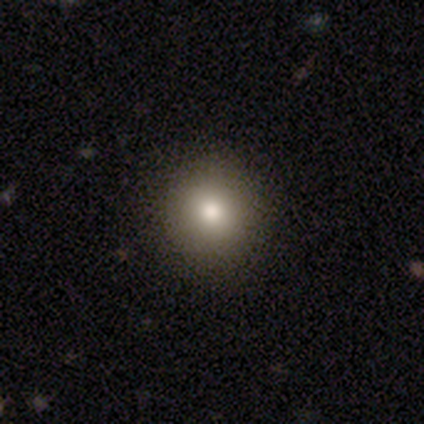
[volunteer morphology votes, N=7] Smooth or featured?
  - smooth: 43% * (tied)
  - star or artifact: 43% * (tied)
  - featured or disk: 14%
How rounded?
  - round: 100% *
  - in between: 0%
  - cigar-shaped: 0%
Merging?
  - none: 50% *
  - minor disturbance: 25%
  - merger: 25%
  - major disturbance: 0%